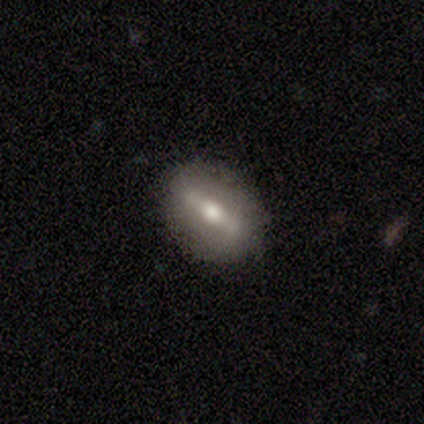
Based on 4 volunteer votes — Smooth or featured? featured or disk (50%)
Edge-on disk? yes (100%)
Edge-on bulge? rounded (100%)
Merging? none (100%)